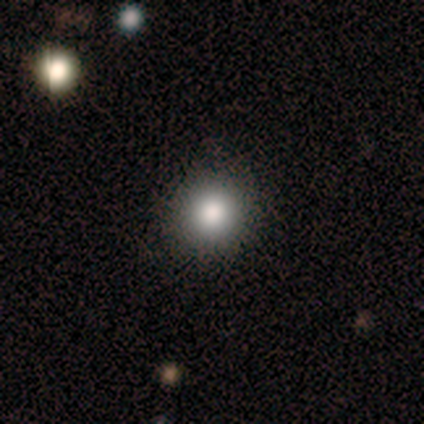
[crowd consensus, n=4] This appears to be a smooth galaxy with no disk features (100%) that is round (100%). Merging: none (75%).